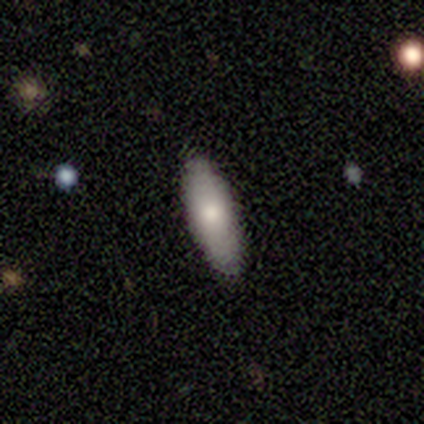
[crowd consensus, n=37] Q: Smooth or featured?
A: smooth (70%); runner-up: featured or disk (27%)
Q: How rounded?
A: cigar-shaped (54%); runner-up: in between (46%)
Q: Merging?
A: none (89%); runner-up: minor disturbance (11%)